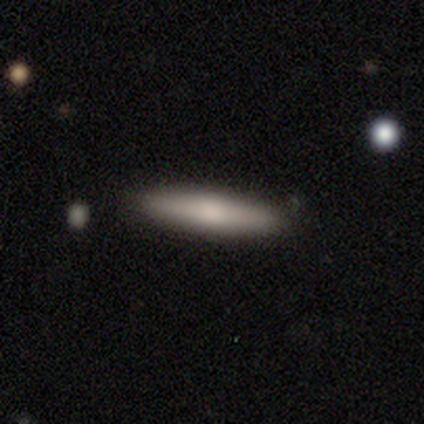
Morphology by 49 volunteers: A smooth galaxy with no disk features (84%) that is cigar-shaped (90%).

Vote fractions:
- Smooth or featured? smooth: 84% / featured or disk: 10% / star or artifact: 6%
- How rounded? cigar-shaped: 90% / in between: 10% / round: 0%
- Merging? none: 91% / minor disturbance: 9% / major disturbance: 0% / merger: 0%